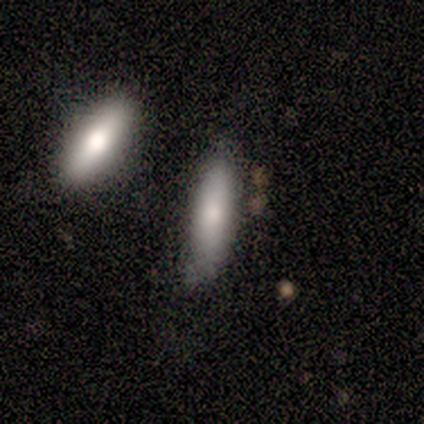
Smooth or featured?
  - smooth: 80% *
  - featured or disk: 20%
  - star or artifact: 0%
How rounded?
  - in between: 50% * (tied)
  - cigar-shaped: 50% * (tied)
  - round: 0%
Merging?
  - none: 60% *
  - major disturbance: 20%
  - merger: 20%
  - minor disturbance: 0%